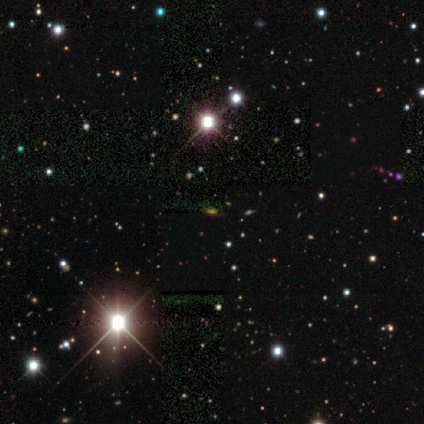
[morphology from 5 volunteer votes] type=star or artifact (100%).